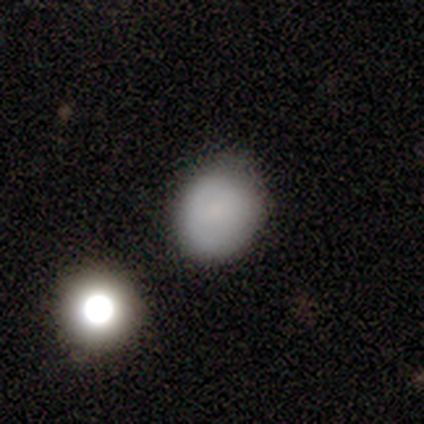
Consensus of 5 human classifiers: smooth-or-featured: smooth: 80% | star or artifact: 20% | featured or disk: 0%
  how-rounded: in between: 75% | round: 25% | cigar-shaped: 0%
  merging: none: 75% | minor disturbance: 25% | major disturbance: 0% | merger: 0%